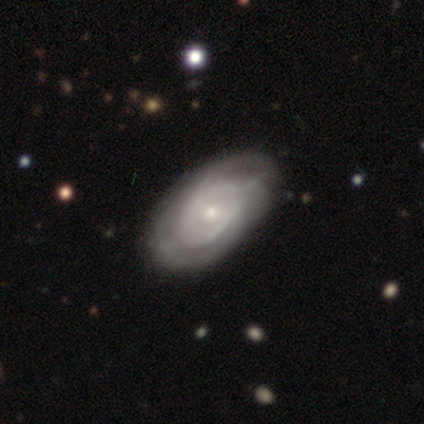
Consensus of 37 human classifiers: This is clearly a featured or disk galaxy (81%). It is clearly not viewed edge-on (97%). Bar: likely no (69%). Spiral arm pattern: likely yes (76%). Spiral arm count: possibly can't tell (59%). Spiral winding: likely tight (64%). Central bulge: likely small (66%). Merging: marginally none (41%).